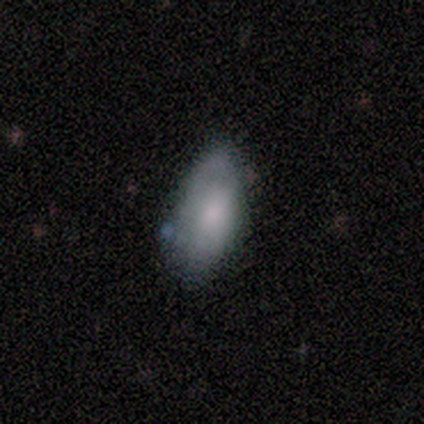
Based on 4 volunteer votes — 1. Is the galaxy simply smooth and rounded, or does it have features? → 50% smooth, 25% featured or disk, 25% star or artifact.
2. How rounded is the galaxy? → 50% in between (tied), 50% cigar-shaped (tied), 0% round.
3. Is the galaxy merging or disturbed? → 100% none, 0% minor disturbance, 0% major disturbance, 0% merger.